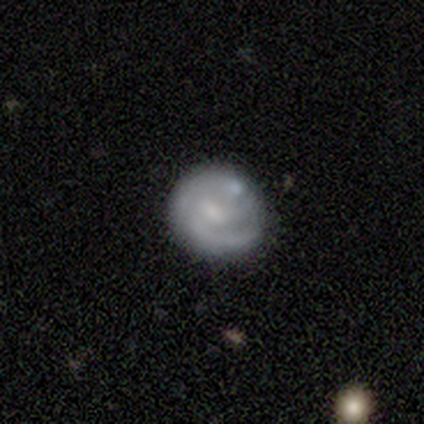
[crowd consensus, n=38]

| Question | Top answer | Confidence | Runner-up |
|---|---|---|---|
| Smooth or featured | featured or disk | 71% | smooth (29%) |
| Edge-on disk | no | 100% | — |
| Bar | weak | 48% | tied: no (48%) |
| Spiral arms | yes | 85% | no (15%) |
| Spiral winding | tight | 52% | medium (35%) |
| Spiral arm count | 2 | 61% | 3 (17%) |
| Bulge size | small | 44% | none (30%) |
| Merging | none | 45% | minor disturbance (24%) |